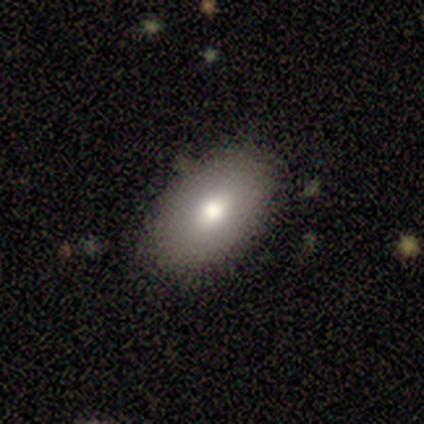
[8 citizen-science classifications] Consensus on every question: smooth or featured — smooth (100%); how rounded — in between (100%); merging — none (100%).